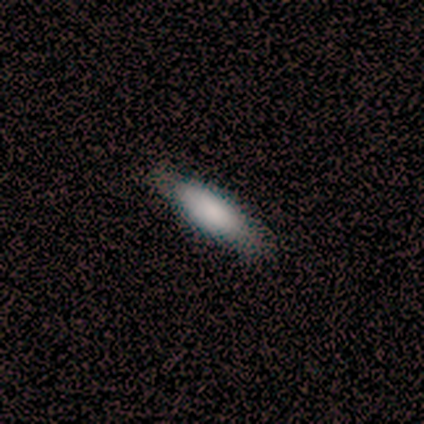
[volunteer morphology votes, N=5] Smooth or featured?
  - smooth: 40% * (tied)
  - star or artifact: 40% * (tied)
  - featured or disk: 20%
How rounded?
  - in between: 50% * (tied)
  - cigar-shaped: 50% * (tied)
  - round: 0%
Merging?
  - none: 100% *
  - minor disturbance: 0%
  - major disturbance: 0%
  - merger: 0%